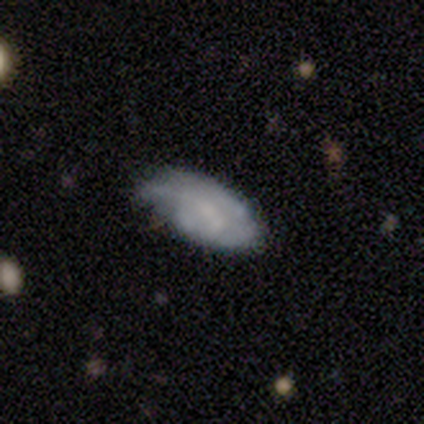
This appears to be a smooth galaxy with no disk features (67%) that is in between round and cigar-shaped (100%). Merging: minor disturbance (67%).